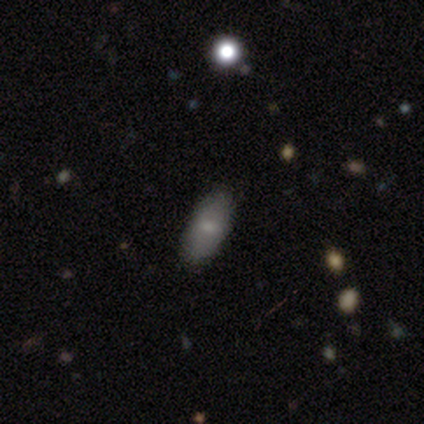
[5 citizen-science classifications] Morphology: type=smooth (60%); roundness=in between (100%); merging=none (100%).